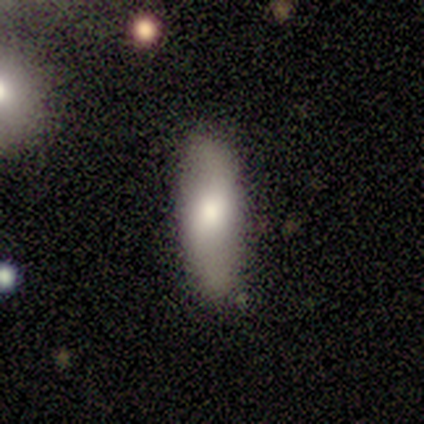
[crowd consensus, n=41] Smooth or featured?
  - smooth: 51% *
  - featured or disk: 39%
  - star or artifact: 10%
How rounded?
  - cigar-shaped: 52% *
  - in between: 48%
  - round: 0%
Merging?
  - none: 86% *
  - minor disturbance: 8%
  - major disturbance: 3%
  - merger: 3%